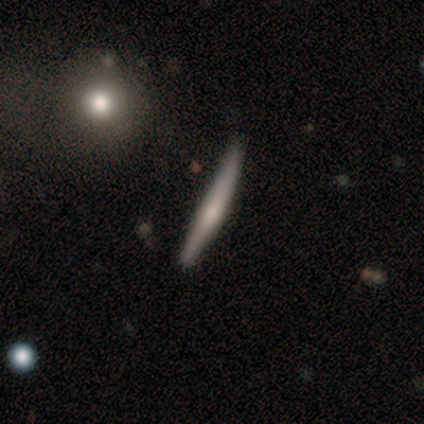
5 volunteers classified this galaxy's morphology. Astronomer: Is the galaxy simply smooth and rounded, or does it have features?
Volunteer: smooth — 60% (runner-up: featured or disk, 40%).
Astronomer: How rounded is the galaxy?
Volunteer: cigar-shaped — 100%.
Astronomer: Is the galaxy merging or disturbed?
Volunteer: none — 60% (runner-up: minor disturbance, 40%).